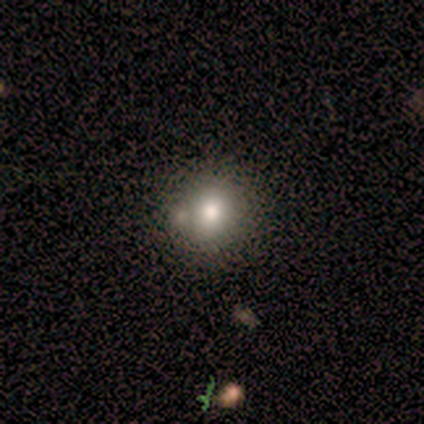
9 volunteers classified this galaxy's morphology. Smooth or featured?
  - smooth: 56% *
  - star or artifact: 33%
  - featured or disk: 11%
How rounded?
  - round: 100% *
  - in between: 0%
  - cigar-shaped: 0%
Merging?
  - none: 67% *
  - merger: 33%
  - minor disturbance: 0%
  - major disturbance: 0%